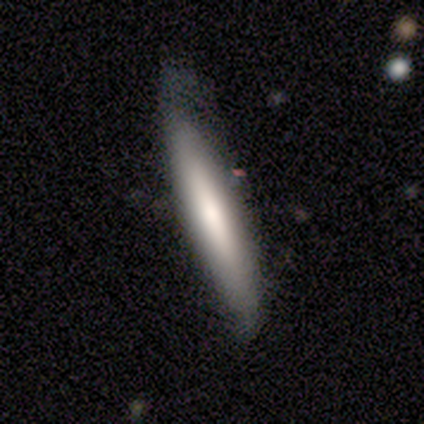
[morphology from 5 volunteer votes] Smooth or featured?
  - smooth: 60% *
  - featured or disk: 40%
  - star or artifact: 0%
How rounded?
  - cigar-shaped: 100% *
  - round: 0%
  - in between: 0%
Merging?
  - minor disturbance: 60% *
  - none: 40%
  - major disturbance: 0%
  - merger: 0%